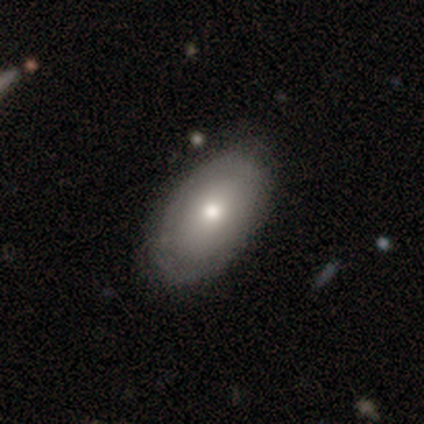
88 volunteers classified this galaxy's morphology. This appears to be a smooth galaxy with no disk features (64%) that is in between round and cigar-shaped (88%). Merging: none (90%).